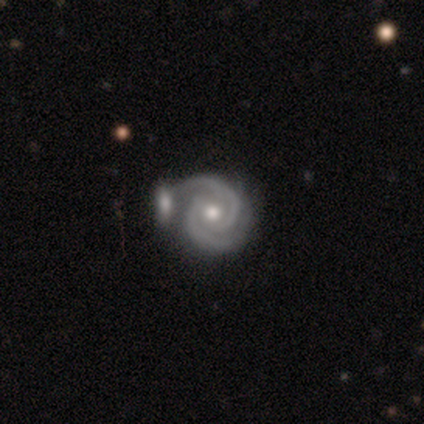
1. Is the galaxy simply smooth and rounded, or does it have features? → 100% featured or disk, 0% smooth, 0% star or artifact.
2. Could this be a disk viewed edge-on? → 80% no, 20% yes.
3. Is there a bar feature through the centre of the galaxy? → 100% no, 0% strong, 0% weak.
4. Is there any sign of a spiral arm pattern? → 100% yes, 0% no.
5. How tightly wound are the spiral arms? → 50% medium, 25% tight, 25% loose.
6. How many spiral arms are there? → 100% 2, 0% 1, 0% 3, 0% 4, 0% more than 4, 0% can't tell.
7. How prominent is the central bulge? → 100% moderate, 0% dominant, 0% large, 0% small, 0% none.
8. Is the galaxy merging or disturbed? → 40% minor disturbance (tied), 40% merger (tied), 20% none, 0% major disturbance.